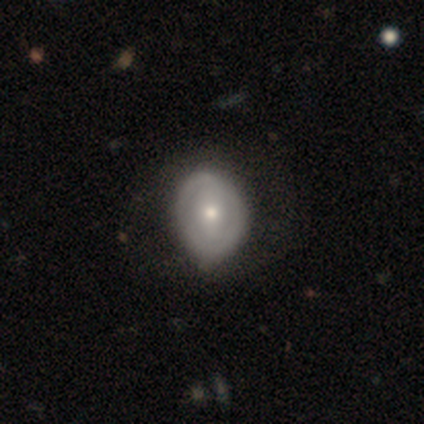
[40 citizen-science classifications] smooth-or-featured: featured or disk: 72% | smooth: 20% | star or artifact: 8%
  disk-edge-on: no: 97% | yes: 3%
    bar: strong: 54% | no: 25% | weak: 21%
    has-spiral-arms: no: 54% | yes: 46%
    bulge-size: moderate: 54% | small: 39% | dominant: 4% | large: 4% | none: 0%
  merging: none: 54% | minor disturbance: 30% | major disturbance: 16% | merger: 0%